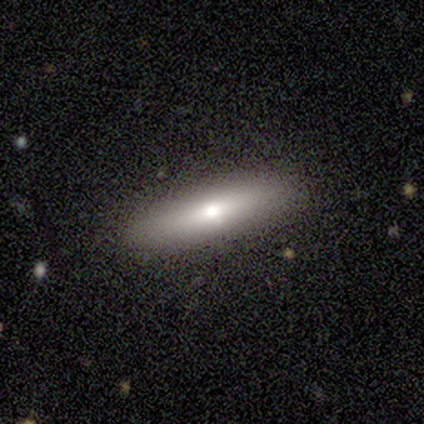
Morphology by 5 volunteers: Q: Smooth or featured?
A: smooth (80%); runner-up: featured or disk (20%)
Q: How rounded?
A: cigar-shaped (75%); runner-up: in between (25%)
Q: Merging?
A: none (100%)